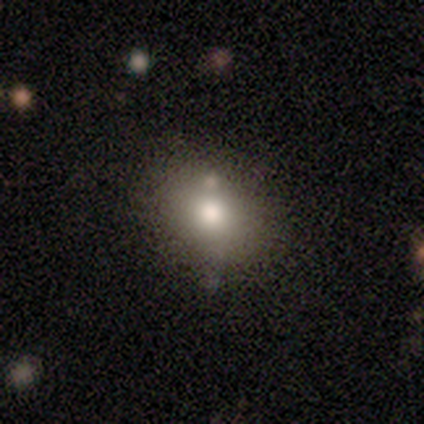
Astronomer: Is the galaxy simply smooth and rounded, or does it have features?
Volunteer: smooth — 67%.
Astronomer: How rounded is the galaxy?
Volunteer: round — 50%, tied with in between at 50%.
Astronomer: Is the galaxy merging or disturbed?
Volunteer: none — 100%.